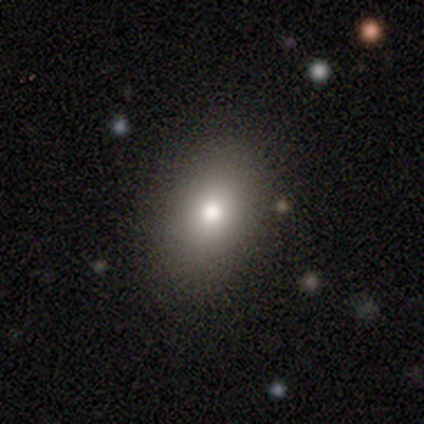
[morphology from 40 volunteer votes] smooth_or_featured: smooth (p=0.85) [alt: featured or disk p=0.07]
how_rounded: in between (p=0.74) [alt: round p=0.26]
merging: none (p=0.81) [alt: minor disturbance p=0.11]